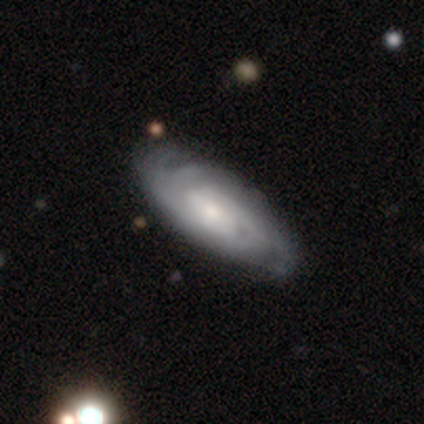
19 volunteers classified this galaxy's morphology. type=featured or disk (84%); edge-on=no (88%); bar=weak (50%); spiral arms=yes (100%); winding=tight (79%); arm count=can't tell (50%); bulge=small (50%); merging=none (58%).